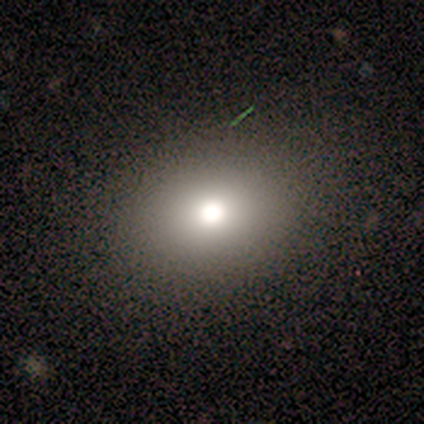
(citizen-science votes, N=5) Smooth or featured?
  - smooth: 100% *
  - featured or disk: 0%
  - star or artifact: 0%
How rounded?
  - round: 60% *
  - in between: 40%
  - cigar-shaped: 0%
Merging?
  - none: 100% *
  - minor disturbance: 0%
  - major disturbance: 0%
  - merger: 0%